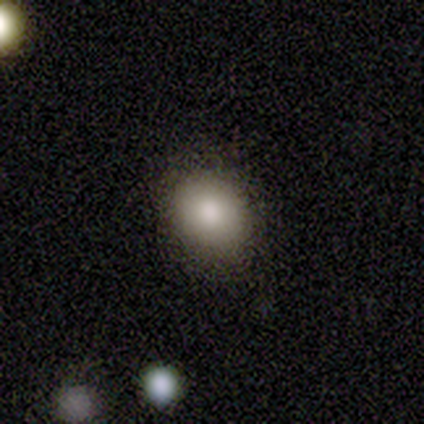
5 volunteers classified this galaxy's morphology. Volunteers were most divided on "how rounded": round: 75%, in between: 25%, cigar-shaped: 0%. More confident: merging — none (100%); smooth or featured — smooth (80%).